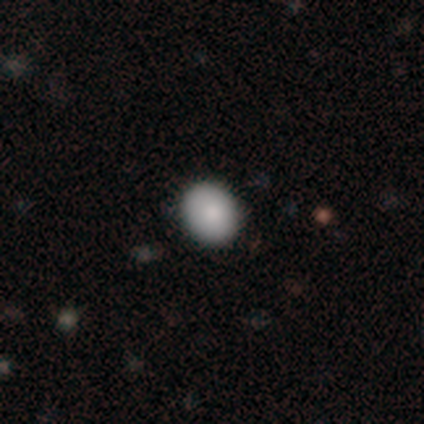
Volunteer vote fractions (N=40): A smooth galaxy with no disk features (80%) that is round (59%).

Vote fractions:
- Smooth or featured? smooth: 80% / star or artifact: 12% / featured or disk: 8%
- How rounded? round: 59% / in between: 38% / cigar-shaped: 3%
- Merging? none: 89% / minor disturbance: 6% / major disturbance: 6% / merger: 0%